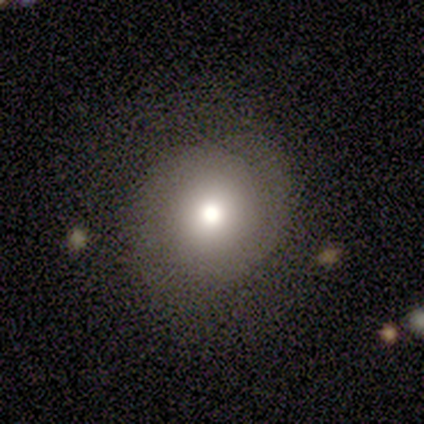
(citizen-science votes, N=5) Morphology: type=smooth (80%); roundness=round (100%); merging=none (100%).